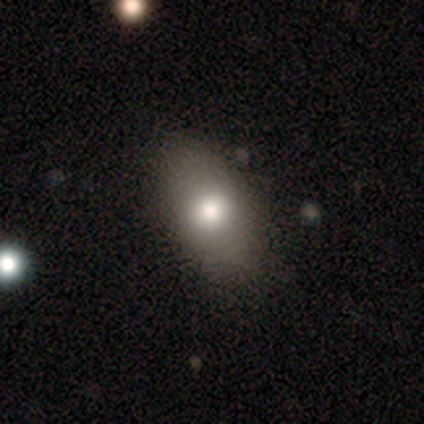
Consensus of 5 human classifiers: Overall: smooth (60%; featured or disk 40%). How rounded: in between (100%). Merging: none (80%).